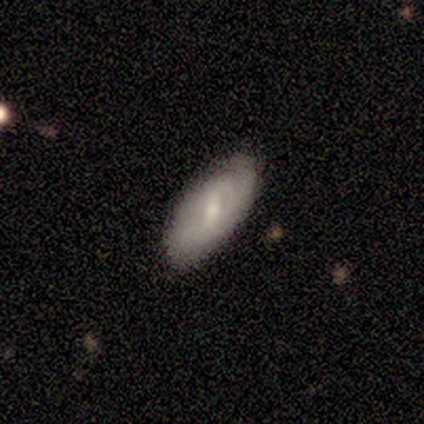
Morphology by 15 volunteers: A featured or disk galaxy (53%) with a weak bar (50%), tight (50%, tied with medium) spiral arms (75%) and a small central bulge (62%). Merging: none (67%).